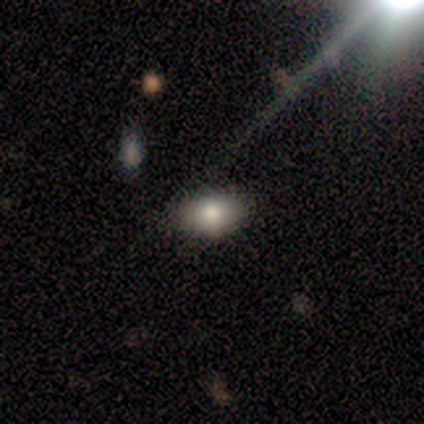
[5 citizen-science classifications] Smooth or featured?
  - smooth: 60% *
  - featured or disk: 40%
  - star or artifact: 0%
How rounded?
  - in between: 100% *
  - round: 0%
  - cigar-shaped: 0%
Merging?
  - none: 100% *
  - minor disturbance: 0%
  - major disturbance: 0%
  - merger: 0%